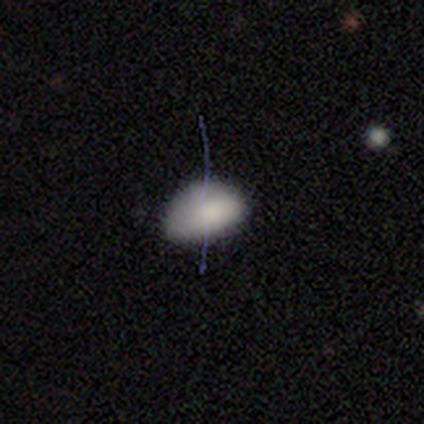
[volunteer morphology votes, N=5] This is clearly a smooth galaxy (100%). How rounded: clearly in between (80%). Merging: clearly none (80%).